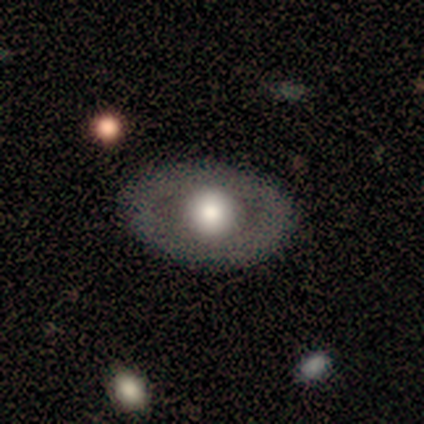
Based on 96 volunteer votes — This is possibly a featured or disk galaxy (51%). It is clearly not viewed edge-on (86%). Bar: clearly no (95%). Spiral arm pattern: clearly no (98%). Central bulge: likely large (74%). Merging: clearly none (91%).